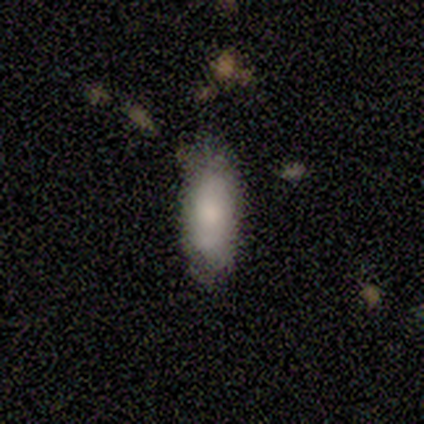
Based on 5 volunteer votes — This appears to be a smooth galaxy with no disk features (80%) that is in between round and cigar-shaped (100%). Merging: none (60%).